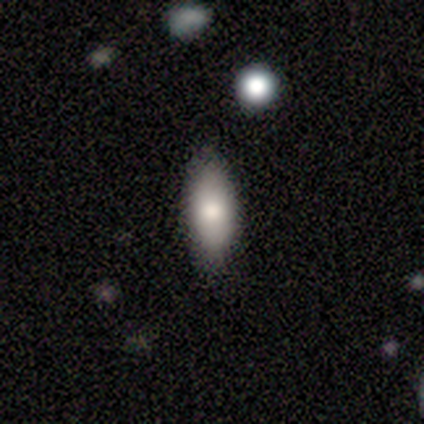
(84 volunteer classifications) This is clearly a smooth galaxy (82%). How rounded: clearly in between (83%). Merging: clearly none (87%).